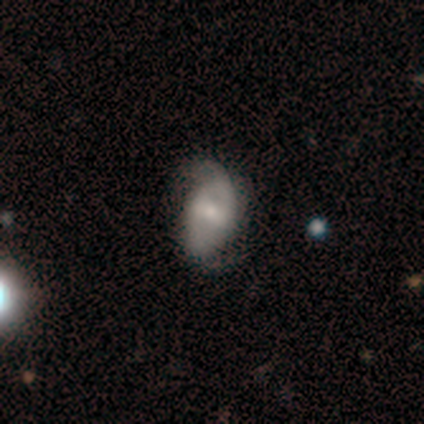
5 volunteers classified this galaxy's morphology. Q: Smooth or featured?
A: featured or disk (80%); runner-up: smooth (20%)
Q: Edge-on disk?
A: no (100%)
Q: Bar?
A: no (50%); runner-up: strong (25%)
Q: Spiral arms?
A: yes (75%); runner-up: no (25%)
Q: Spiral winding?
A: loose (67%); runner-up: tight (33%)
Q: Spiral arm count?
A: 2 (100%)
Q: Bulge size?
A: moderate (50%); runner-up: small (25%)
Q: Merging?
A: none (60%); runner-up: minor disturbance (40%)